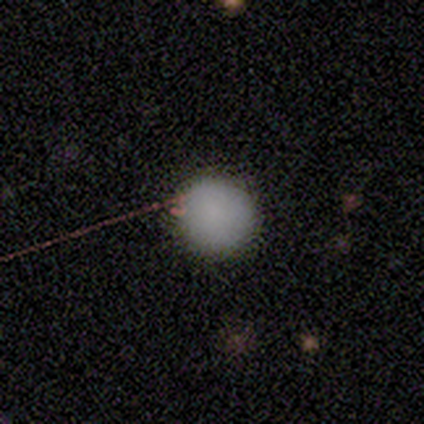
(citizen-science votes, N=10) Volunteers were most divided on "smooth or featured": smooth: 80%, star or artifact: 20%, featured or disk: 0%. More confident: how rounded — round (100%); merging — none (88%).